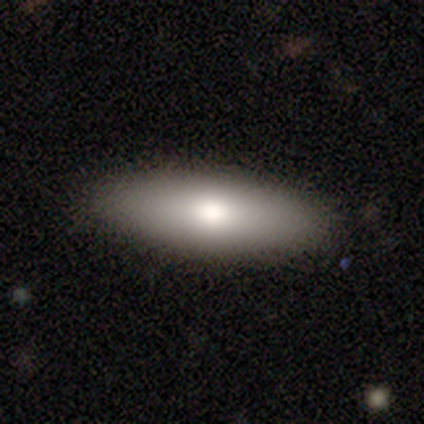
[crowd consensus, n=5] Morphology: type=smooth (100%); roundness=in between (60%); merging=none (80%).